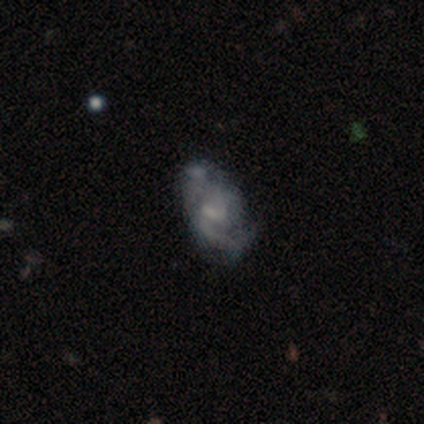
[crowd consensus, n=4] featured or disk 75%, smooth 25%, star or artifact 0%. Down the decision tree: edge-on disk — no (100%); bar — no (67%); spiral arms — yes (100%); spiral arm count — 2 (100%); spiral winding — loose (67%); bulge size — moderate (33%, tied with small and none); merging — none (50%).